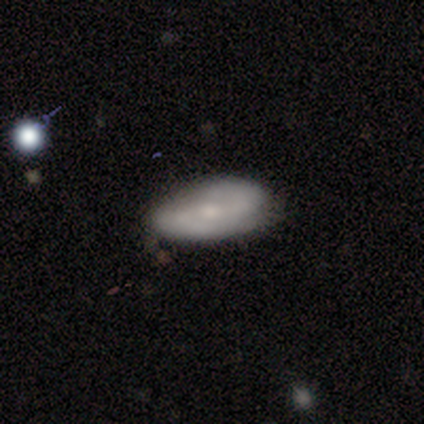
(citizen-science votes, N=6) smooth 50% (tied), featured or disk 50% (tied), star or artifact 0%. Down the decision tree: how rounded — in between (100%); merging — none (83%).